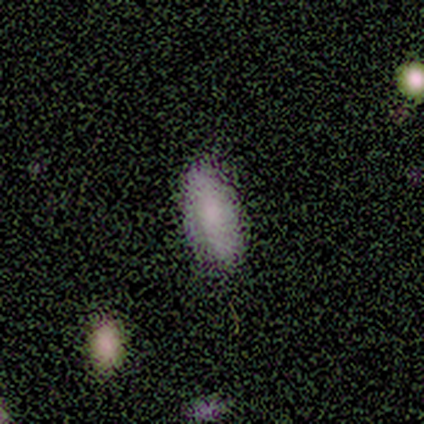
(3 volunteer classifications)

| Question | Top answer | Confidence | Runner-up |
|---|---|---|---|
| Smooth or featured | smooth | 67% | star or artifact (33%) |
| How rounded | in between | 100% | — |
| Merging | none | 100% | — |